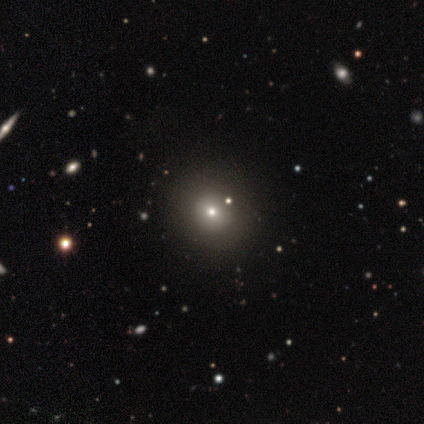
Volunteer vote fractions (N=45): A smooth galaxy with no disk features (87%) that is round (92%). Merging: none (67%).